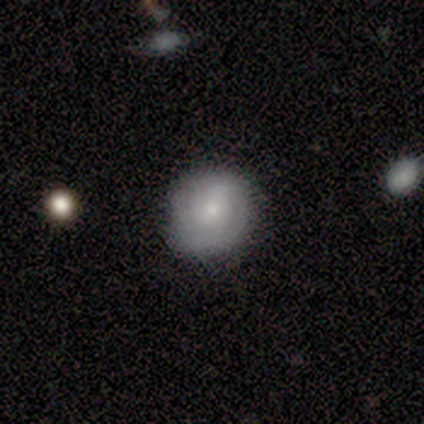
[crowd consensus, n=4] A smooth galaxy with no disk features (50%, tied with featured or disk) that is round (100%). Merging: none (75%).